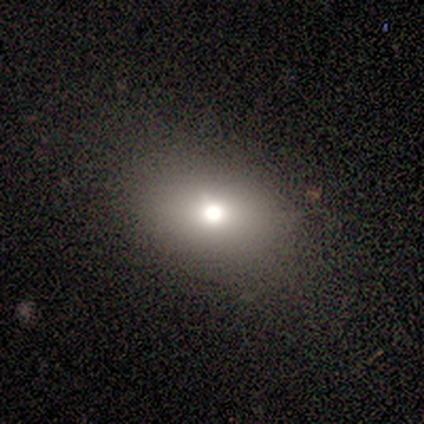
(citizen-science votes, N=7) This appears to be a smooth galaxy with no disk features (57%) that is in between round and cigar-shaped (100%). Merging: none (100%).